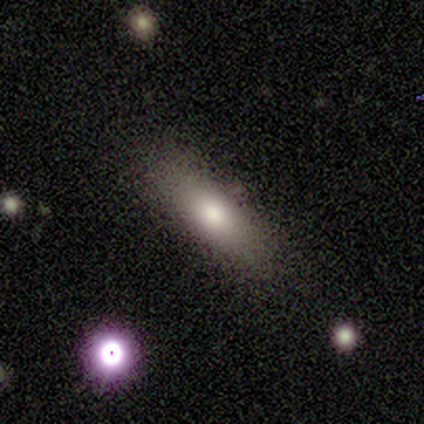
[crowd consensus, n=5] smooth 60%, featured or disk 40%, star or artifact 0%. Down the decision tree: how rounded — in between (100%); merging — none (100%).